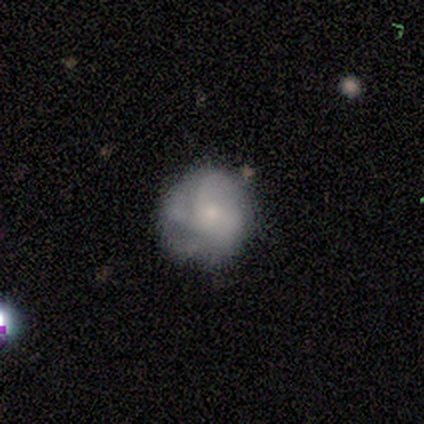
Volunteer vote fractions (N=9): Volunteers were most divided on "spiral winding" (2-way tie): tight: 40%, loose: 40%, medium: 20%. More confident: edge-on disk — no (100%); bar — no (83%); spiral arms — yes (83%); bulge size — small (83%); smooth or featured — featured or disk (67%); spiral arm count — 4 (60%); merging — none (56%).